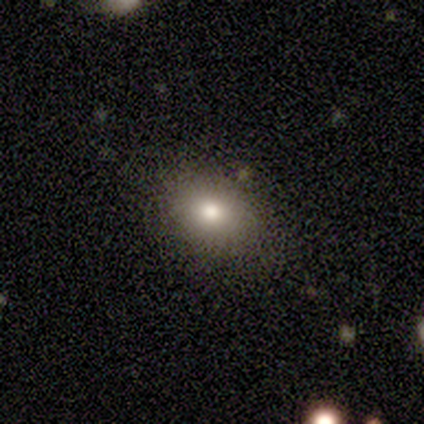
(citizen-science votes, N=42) Smooth or featured: smooth — 74% (featured or disk — 17%)
How rounded: in between — 74% (round — 26%)
Merging: none — 89% (minor disturbance — 11%)